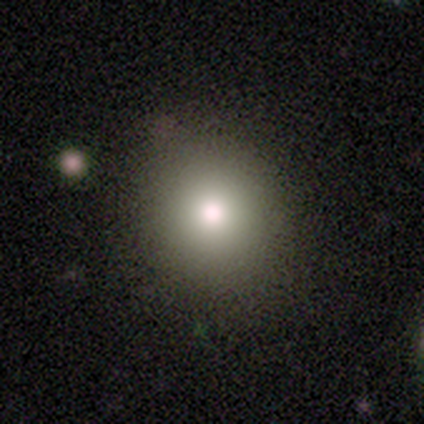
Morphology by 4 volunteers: Overall: smooth (100%). How rounded: round (100%). Merging: none (100%).